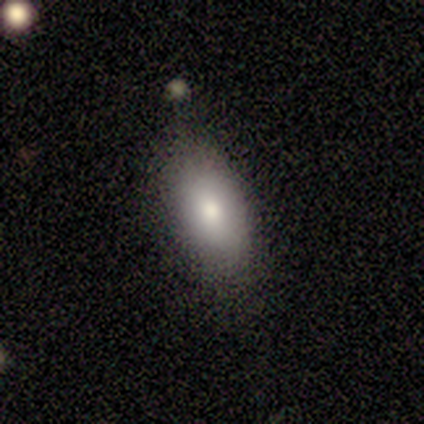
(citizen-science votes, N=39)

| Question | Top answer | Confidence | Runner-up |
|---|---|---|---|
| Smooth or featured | smooth | 74% | featured or disk (23%) |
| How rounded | in between | 93% | cigar-shaped (7%) |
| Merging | none | 74% | minor disturbance (21%) |